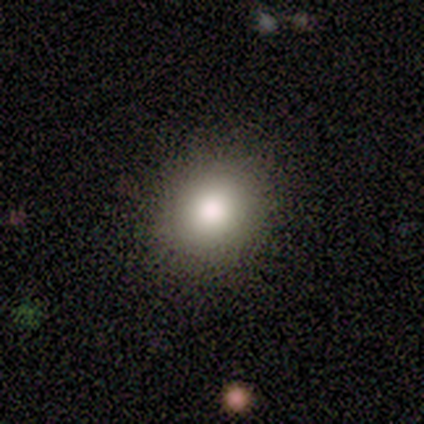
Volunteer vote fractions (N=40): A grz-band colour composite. It shows a smooth galaxy with no disk features (82%) that is round (73%). Merging: none (94%).